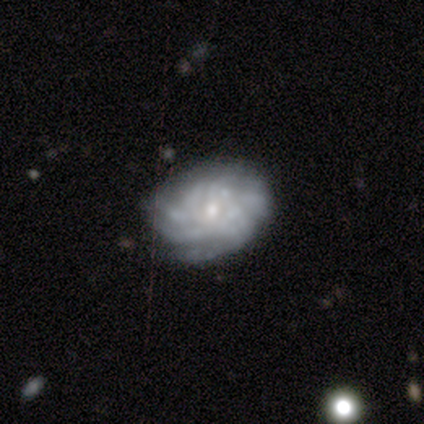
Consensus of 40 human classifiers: Smooth or featured: featured or disk — 85% (smooth — 12%)
Edge-on disk: no — 100%
Bar: no — 65% (weak — 32%)
Spiral arms: yes — 88% (no — 12%)
Spiral winding: tight — 57% (medium — 30%)
Spiral arm count: can't tell — 63% (4 — 13%)
Bulge size: small — 53% (moderate — 44%)
Merging: none — 67% (minor disturbance — 26%)